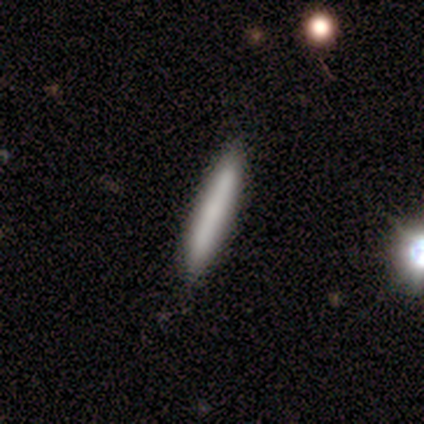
A smooth galaxy with no disk features (58%) that is cigar-shaped (100%).

Vote fractions:
- Smooth or featured? smooth: 58% / featured or disk: 33% / star or artifact: 8%
- How rounded? cigar-shaped: 100% / round: 0% / in between: 0%
- Merging? none: 94% / minor disturbance: 3% / major disturbance: 3% / merger: 0%